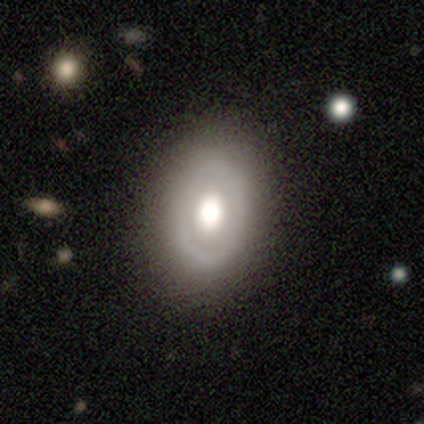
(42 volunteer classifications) This appears to be a featured or disk galaxy (64%) with no bar (93%), no spiral arms (96%) and a large central bulge (67%). Merging: none (83%).